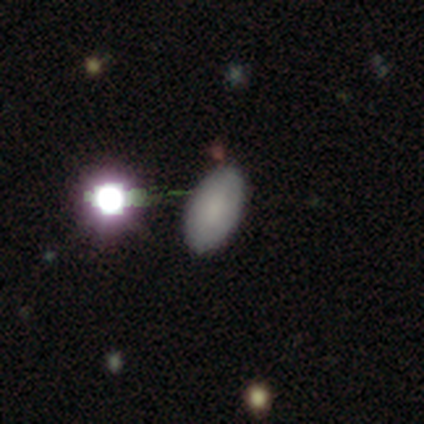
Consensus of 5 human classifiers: A smooth galaxy with no disk features (60%) that is in between round and cigar-shaped (100%). Merging: none (75%).